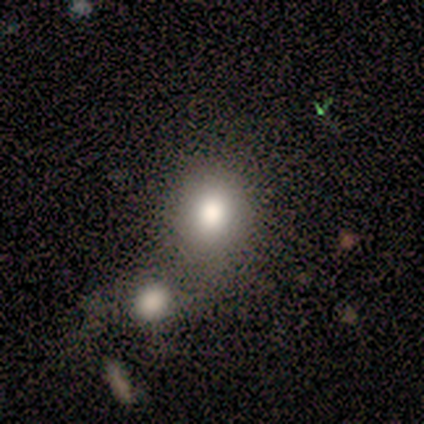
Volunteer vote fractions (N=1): Q: Smooth or featured?
A: smooth (100%)
Q: How rounded?
A: round (100%)
Q: Merging?
A: none (100%)